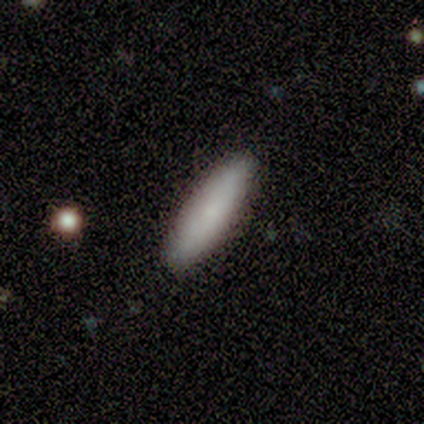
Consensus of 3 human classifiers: Morphology: type=smooth (67%); roundness=round (50%, tied with cigar-shaped); merging=none (100%).